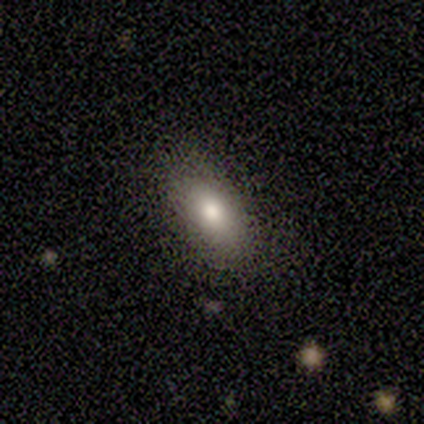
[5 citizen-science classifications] Smooth or featured: smooth — 80% (star or artifact — 20%)
How rounded: in between — 100%
Merging: none — 100%